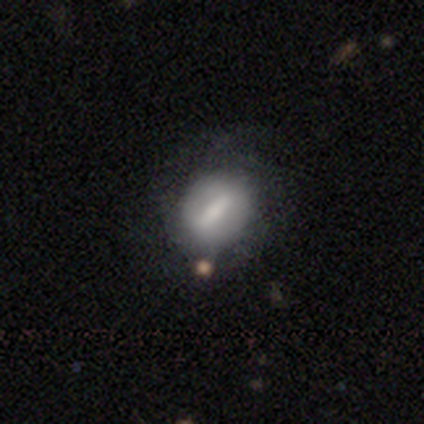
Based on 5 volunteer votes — Smooth or featured? 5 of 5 (100%) said smooth. How rounded? 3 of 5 (60%) said round. Merging? 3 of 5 (60%) said none.